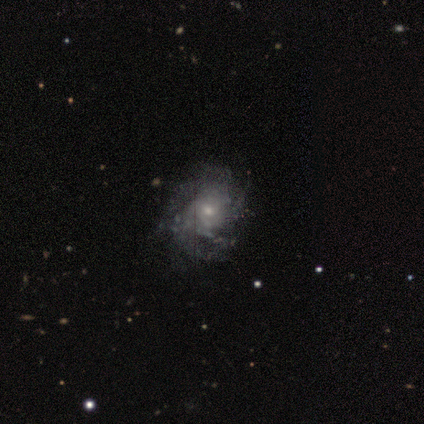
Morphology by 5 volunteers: Smooth or featured: featured or disk — 100%
Edge-on disk: no — 100%
Bar: no — 80% (weak — 20%)
Spiral arms: yes — 80% (no — 20%)
Spiral winding: medium — 75% (tight — 25%)
Spiral arm count: can't tell — 50% (2 — 25%)
Bulge size: small — 100%
Merging: none — 60% (minor disturbance — 20%)